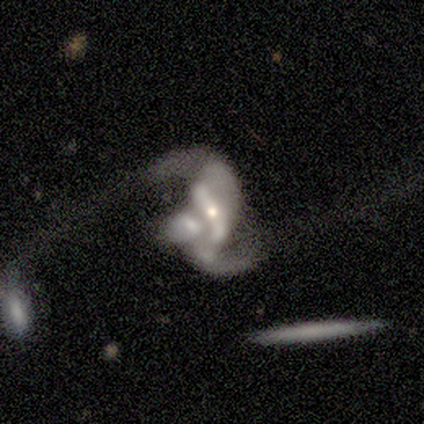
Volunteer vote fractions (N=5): Q: Smooth or featured?
A: featured or disk (60%); runner-up: smooth (20%)
Q: Edge-on disk?
A: no (100%)
Q: Bar?
A: strong (100%)
Q: Spiral arms?
A: yes (100%)
Q: Spiral winding?
A: tight (33%); tied with: medium (33%); loose (33%)
Q: Spiral arm count?
A: 2 (100%)
Q: Bulge size?
A: small (67%); runner-up: large (33%)
Q: Merging?
A: merger (75%); runner-up: none (25%)